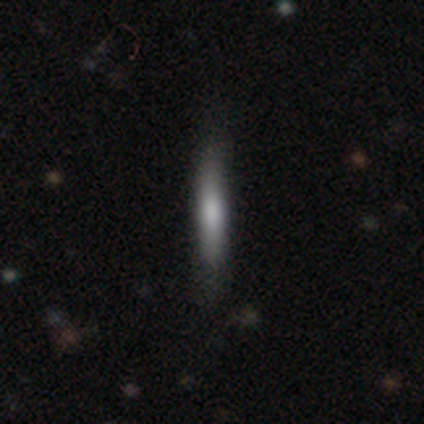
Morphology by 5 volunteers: Smooth or featured: smooth — 60% (featured or disk — 20%)
How rounded: cigar-shaped — 100%
Merging: none — 100%